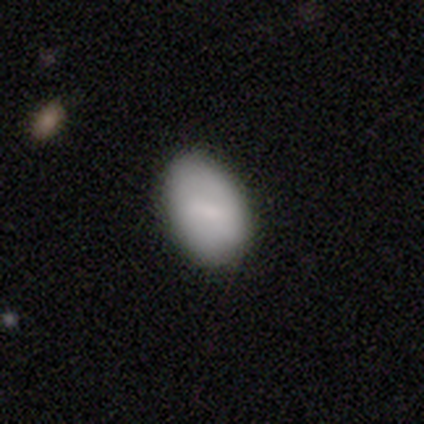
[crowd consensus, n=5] This appears to be a smooth galaxy with no disk features (100%) that is in between round and cigar-shaped (100%). Merging: none (100%).